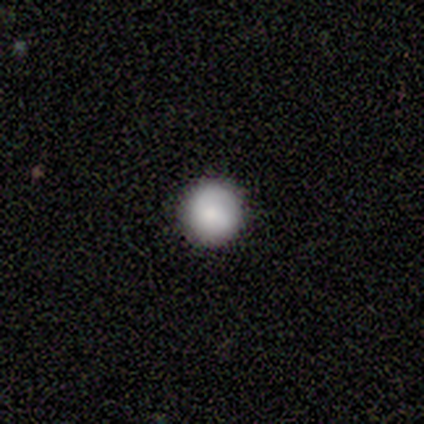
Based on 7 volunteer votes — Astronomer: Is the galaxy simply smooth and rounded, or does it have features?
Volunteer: smooth — 57%.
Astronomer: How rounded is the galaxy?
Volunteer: round — 100%.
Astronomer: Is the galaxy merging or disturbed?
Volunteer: none — 83%.